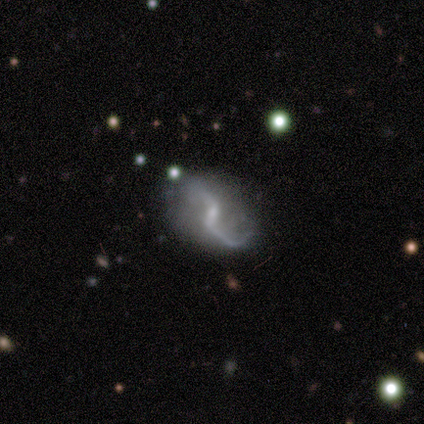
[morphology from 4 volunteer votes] type=featured or disk (100%); edge-on=no (100%); bar=weak (50%, tied with no); spiral arms=yes (100%); winding=loose (100%); arm count=2 (75%); bulge=large (25%, tied with moderate, small and none); merging=none (75%).